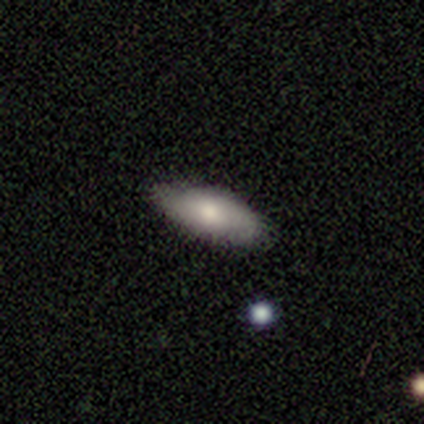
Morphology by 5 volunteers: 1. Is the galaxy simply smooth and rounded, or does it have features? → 100% smooth, 0% featured or disk, 0% star or artifact.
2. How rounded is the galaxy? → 80% in between, 20% cigar-shaped, 0% round.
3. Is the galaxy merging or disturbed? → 100% none, 0% minor disturbance, 0% major disturbance, 0% merger.